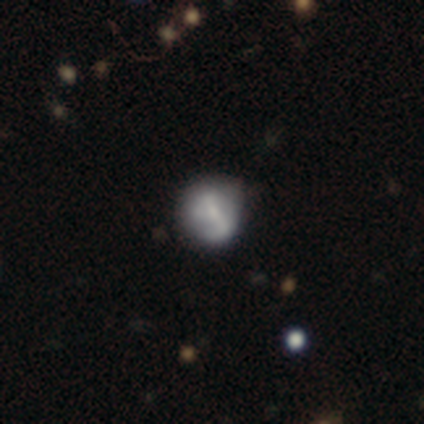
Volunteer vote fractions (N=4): A featured or disk galaxy (75%) with no bar (67%), 2 (50%, tied with can't tell) medium (100%) spiral arms (67%) and a moderate central bulge (33%, tied with small and none).

Vote fractions:
- Smooth or featured? featured or disk: 75% / smooth: 25% / star or artifact: 0%
- Edge-on disk? no: 100% / yes: 0%
- Bar? no: 67% / strong: 33% / weak: 0%
- Spiral arms? yes: 67% / no: 33%
- Spiral winding? medium: 100% / tight: 0% / loose: 0%
- Spiral arm count? 2: 50% (tied) / can't tell: 50% (tied) / 1: 0% / 3: 0% / 4: 0% / more than 4: 0%
- Bulge size? moderate: 33% (tied) / small: 33% (tied) / none: 33% (tied) / dominant: 0% / large: 0%
- Merging? none: 50% (tied) / minor disturbance: 50% (tied) / major disturbance: 0% / merger: 0%